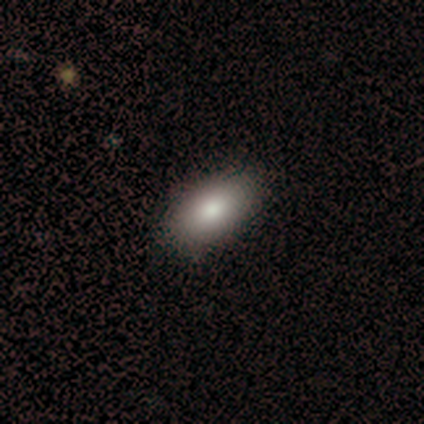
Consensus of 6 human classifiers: Smooth or featured? smooth (83%)
How rounded? in between (100%)
Merging? none (100%)